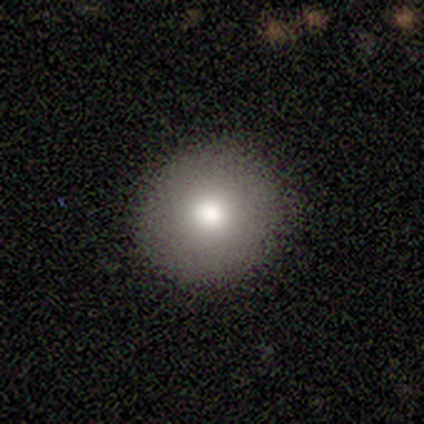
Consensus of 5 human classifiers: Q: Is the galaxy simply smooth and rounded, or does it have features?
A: smooth — 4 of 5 (80%).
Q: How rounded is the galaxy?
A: round — 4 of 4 (100%).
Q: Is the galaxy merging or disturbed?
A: none — 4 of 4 (100%).